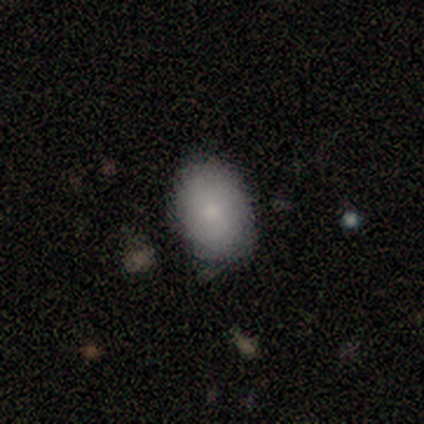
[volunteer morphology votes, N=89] Smooth or featured?
  - smooth: 82% *
  - featured or disk: 10%
  - star or artifact: 8%
How rounded?
  - in between: 85% *
  - round: 15%
  - cigar-shaped: 0%
Merging?
  - none: 82% *
  - minor disturbance: 16%
  - major disturbance: 2%
  - merger: 0%